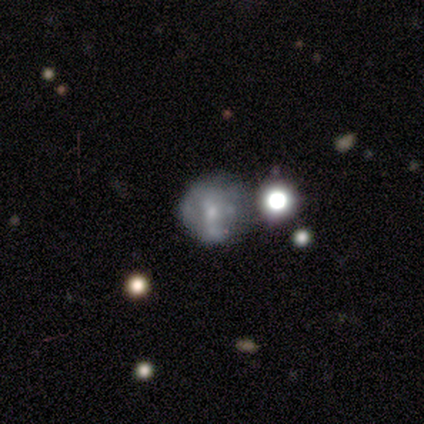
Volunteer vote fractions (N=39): Volunteers were most divided on "merging": none: 46%, minor disturbance: 38%, major disturbance: 10%, merger: 5%. More confident: edge-on disk — no (100%); smooth or featured — featured or disk (72%); spiral arms — no (71%); bulge size — small (57%); bar — no (54%).